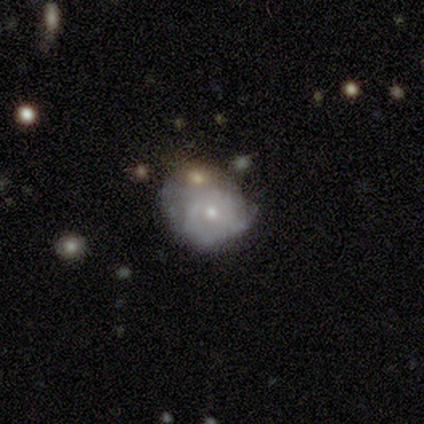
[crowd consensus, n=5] A featured or disk galaxy (80%) with no bar (100%), 2 (33%, tied with 3 and can't tell) medium (67%) spiral arms (75%) and a small central bulge (100%).

Vote fractions:
- Smooth or featured? featured or disk: 80% / smooth: 20% / star or artifact: 0%
- Edge-on disk? no: 100% / yes: 0%
- Bar? no: 100% / strong: 0% / weak: 0%
- Spiral arms? yes: 75% / no: 25%
- Spiral winding? medium: 67% / tight: 33% / loose: 0%
- Spiral arm count? 2: 33% (tied) / 3: 33% (tied) / can't tell: 33% (tied) / 1: 0% / 4: 0% / more than 4: 0%
- Bulge size? small: 100% / dominant: 0% / large: 0% / moderate: 0% / none: 0%
- Merging? minor disturbance: 60% / none: 40% / major disturbance: 0% / merger: 0%